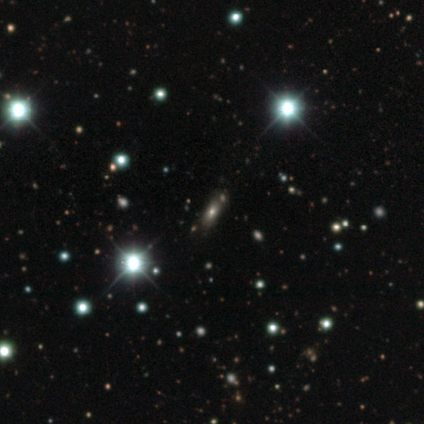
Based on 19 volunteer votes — Smooth or featured? smooth (53%)
How rounded? in between (70%)
Merging? none (86%)